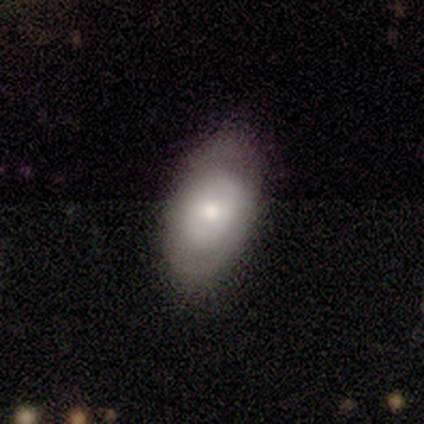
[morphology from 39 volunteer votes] This appears to be a smooth galaxy with no disk features (64%) that is in between round and cigar-shaped (96%). Merging: none (77%).